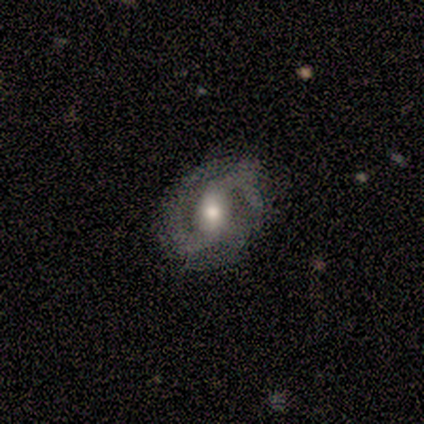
smooth_or_featured: featured or disk (p=0.87) [alt: smooth p=0.11]
disk_edge_on: no (p=1.00)
bar: weak (p=0.52) [alt: no p=0.27]
has_spiral_arms: yes (p=1.00)
spiral_winding: medium (p=0.61) [alt: tight p=0.24]
spiral_arm_count: 2 (p=0.91) [alt: can't tell p=0.06]
bulge_size: moderate (p=0.61) [alt: small p=0.21]
merging: none (p=0.68) [alt: minor disturbance p=0.27]